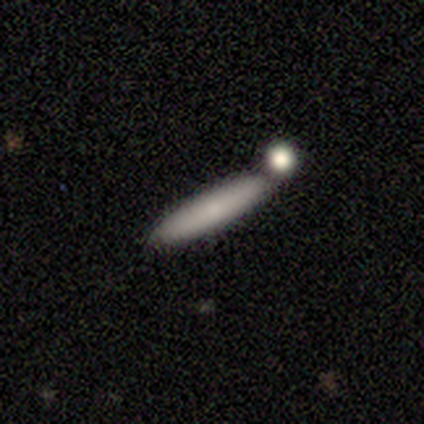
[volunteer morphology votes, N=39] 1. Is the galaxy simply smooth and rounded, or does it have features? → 62% smooth, 23% featured or disk, 15% star or artifact.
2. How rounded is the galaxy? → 88% cigar-shaped, 12% in between, 0% round.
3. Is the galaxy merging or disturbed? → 67% none, 18% merger, 12% minor disturbance, 3% major disturbance.